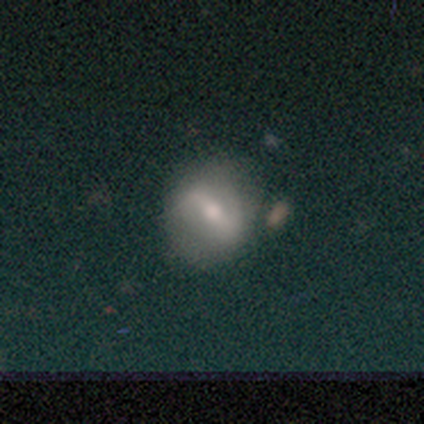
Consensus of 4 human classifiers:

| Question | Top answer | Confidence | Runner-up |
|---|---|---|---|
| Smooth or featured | smooth | 50% | tied: featured or disk (50%) |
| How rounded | round | 100% | — |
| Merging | none | 50% | tied: minor disturbance (50%) |